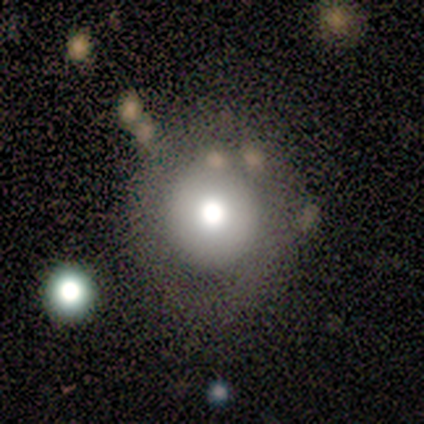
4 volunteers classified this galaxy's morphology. smooth-or-featured: smooth: 50% | featured or disk: 25% | star or artifact: 25%
  how-rounded: round: 100% | in between: 0% | cigar-shaped: 0%
  merging: none: 67% | minor disturbance: 33% | major disturbance: 0% | merger: 0%